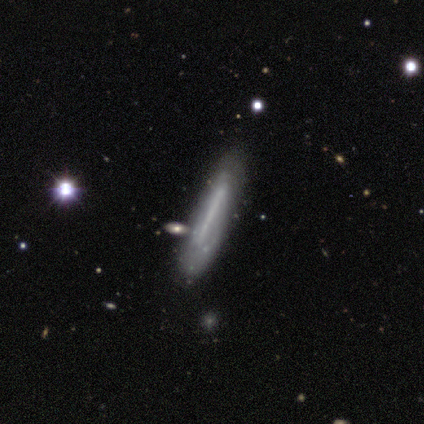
smooth_or_featured: featured or disk (p=0.60) [alt: smooth p=0.40]
disk_edge_on: yes (p=0.67) [alt: no p=0.33]
edge_on_bulge: boxy (p=0.50) [tied with: none p=0.50]
merging: none (p=0.60) [alt: minor disturbance p=0.20]